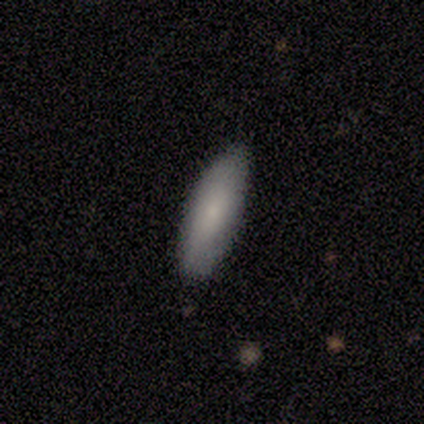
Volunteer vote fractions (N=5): Volunteers were most divided on "how rounded": cigar-shaped: 60%, in between: 40%, round: 0%. More confident: smooth or featured — smooth (100%); merging — none (100%).